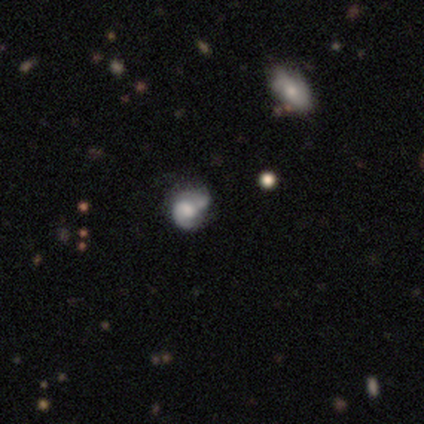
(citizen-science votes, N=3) Smooth or featured? 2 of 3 (67%) said smooth. How rounded? 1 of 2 (50%, tied with in between) said round. Merging? 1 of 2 (50%, tied with minor disturbance) said none.